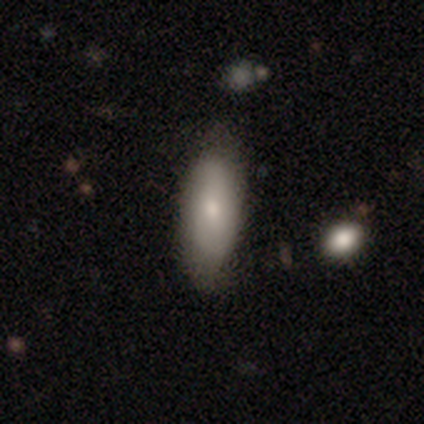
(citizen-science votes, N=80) Q: Smooth or featured?
A: smooth (68%); runner-up: featured or disk (24%)
Q: How rounded?
A: in between (81%); runner-up: cigar-shaped (17%)
Q: Merging?
A: none (41%); runner-up: minor disturbance (7%)